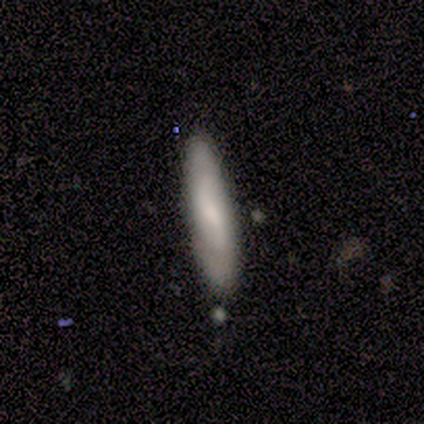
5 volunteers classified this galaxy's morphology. A smooth galaxy with no disk features (60%) that is cigar-shaped (100%).

Vote fractions:
- Smooth or featured? smooth: 60% / featured or disk: 20% / star or artifact: 20%
- How rounded? cigar-shaped: 100% / round: 0% / in between: 0%
- Merging? none: 100% / minor disturbance: 0% / major disturbance: 0% / merger: 0%